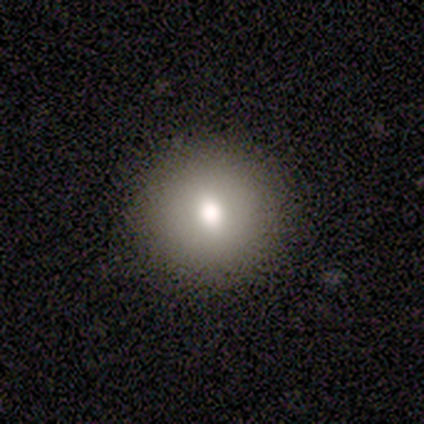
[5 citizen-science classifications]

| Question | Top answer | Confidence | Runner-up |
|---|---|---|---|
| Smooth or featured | smooth | 100% | — |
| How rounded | round | 100% | — |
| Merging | none | 100% | — |